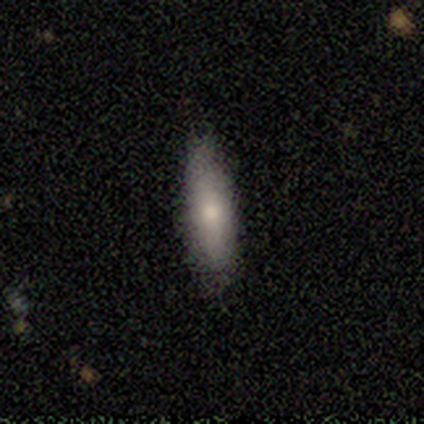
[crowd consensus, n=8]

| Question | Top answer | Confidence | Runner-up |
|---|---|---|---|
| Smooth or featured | smooth | 50% | tied: featured or disk (50%) |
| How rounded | in between | 75% | cigar-shaped (25%) |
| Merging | none | 88% | major disturbance (12%) |